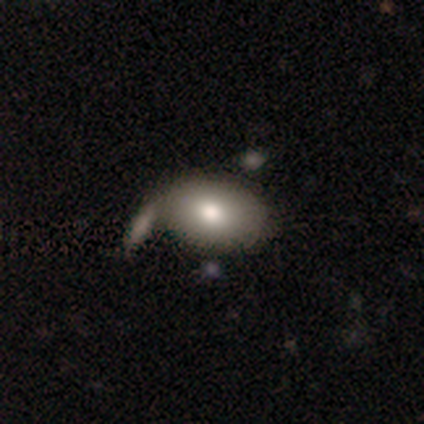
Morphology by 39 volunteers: smooth_or_featured: smooth (p=0.77) [alt: featured or disk p=0.18]
how_rounded: in between (p=0.73) [alt: round p=0.27]
merging: none (p=0.51) [alt: minor disturbance p=0.19]